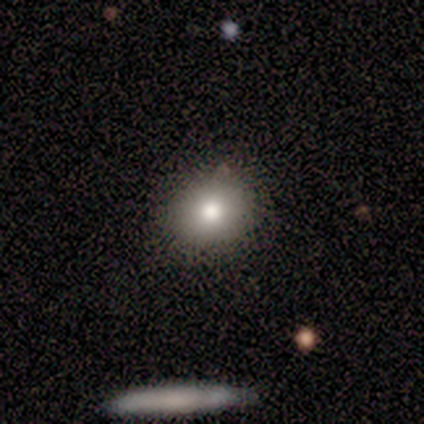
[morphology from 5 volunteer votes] Volunteers were most divided on "smooth or featured": smooth: 60%, featured or disk: 40%, star or artifact: 0%. More confident: how rounded — round (100%); merging — none (80%).